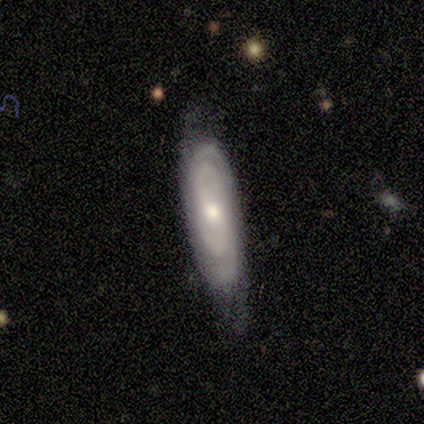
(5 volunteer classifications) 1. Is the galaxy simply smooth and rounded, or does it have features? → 80% featured or disk, 20% smooth, 0% star or artifact.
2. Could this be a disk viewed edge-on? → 100% no, 0% yes.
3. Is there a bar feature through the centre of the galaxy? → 75% no, 25% weak, 0% strong.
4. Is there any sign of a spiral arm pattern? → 100% yes, 0% no.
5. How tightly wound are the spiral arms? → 100% tight, 0% medium, 0% loose.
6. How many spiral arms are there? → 50% 2 (tied), 50% can't tell (tied), 0% 1, 0% 3, 0% 4, 0% more than 4.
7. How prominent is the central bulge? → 75% small, 25% moderate, 0% dominant, 0% large, 0% none.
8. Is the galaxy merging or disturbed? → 40% none (tied), 40% minor disturbance (tied), 20% merger, 0% major disturbance.